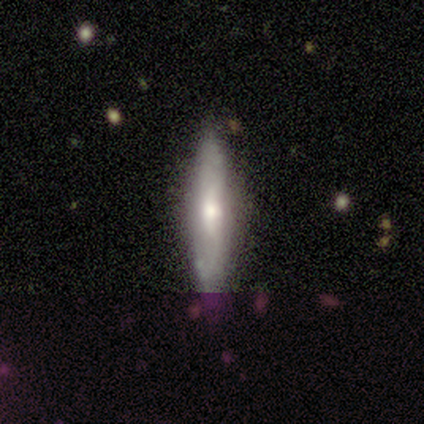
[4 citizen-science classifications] Smooth or featured?
  - smooth: 50% * (tied)
  - featured or disk: 50% * (tied)
  - star or artifact: 0%
How rounded?
  - in between: 50% * (tied)
  - cigar-shaped: 50% * (tied)
  - round: 0%
Merging?
  - none: 75% *
  - minor disturbance: 25%
  - major disturbance: 0%
  - merger: 0%